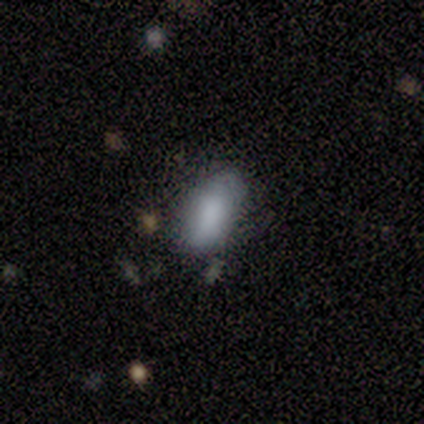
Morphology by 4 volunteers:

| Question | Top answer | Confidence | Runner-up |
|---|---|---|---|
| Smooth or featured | smooth | 100% | — |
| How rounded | in between | 100% | — |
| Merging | none | 75% | minor disturbance (25%) |